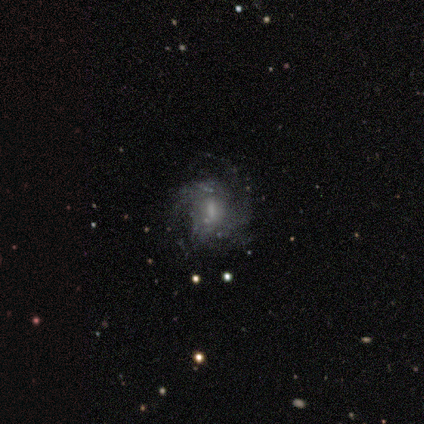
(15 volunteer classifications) A featured or disk galaxy (93%) with a weak bar (46%), 4 (33%, tied with can't tell) medium (50%) spiral arms (92%) and a moderate central bulge (46%). Merging: none (57%).